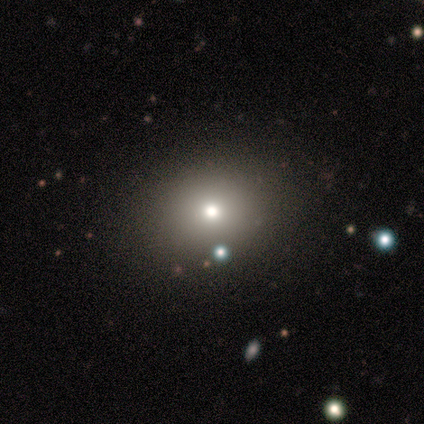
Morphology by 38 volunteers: Smooth or featured?
  - smooth: 63% *
  - star or artifact: 32%
  - featured or disk: 5%
How rounded?
  - round: 54% *
  - in between: 46%
  - cigar-shaped: 0%
Merging?
  - none: 96% *
  - major disturbance: 4%
  - minor disturbance: 0%
  - merger: 0%